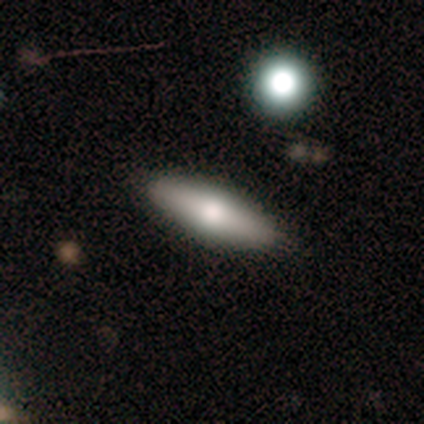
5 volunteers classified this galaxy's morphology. smooth-or-featured: smooth: 60% | featured or disk: 40% | star or artifact: 0%
  how-rounded: cigar-shaped: 67% | in between: 33% | round: 0%
  merging: none: 100% | minor disturbance: 0% | major disturbance: 0% | merger: 0%